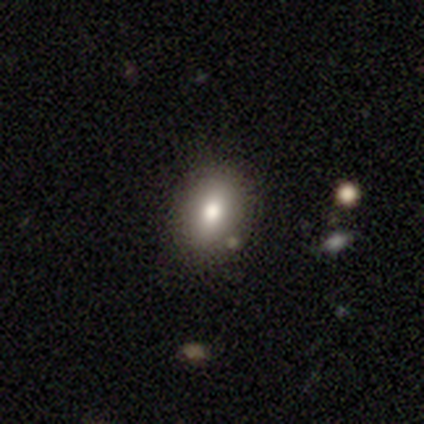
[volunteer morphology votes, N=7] Smooth or featured? smooth (86%)
How rounded? in between (67%)
Merging? none (86%)